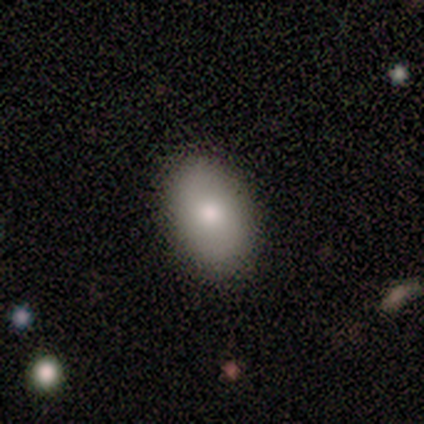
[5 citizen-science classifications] Smooth or featured: smooth — 80% (star or artifact — 20%)
How rounded: in between — 100%
Merging: none — 100%